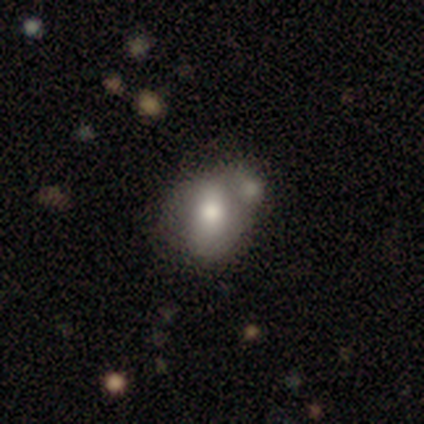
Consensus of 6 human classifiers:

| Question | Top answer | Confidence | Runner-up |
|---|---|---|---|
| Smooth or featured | smooth | 50% | featured or disk (33%) |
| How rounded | in between | 100% | — |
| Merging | merger | 60% | minor disturbance (40%) |